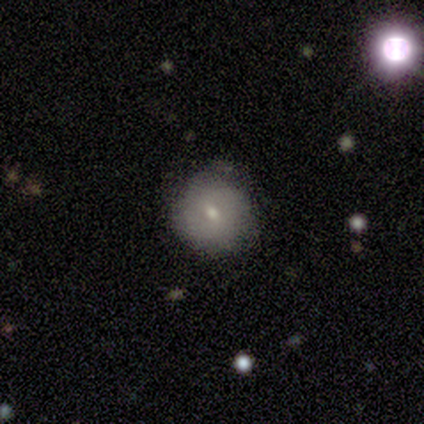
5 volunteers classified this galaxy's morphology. Overall: smooth (80%). How rounded: round (100%). Merging: none (80%).